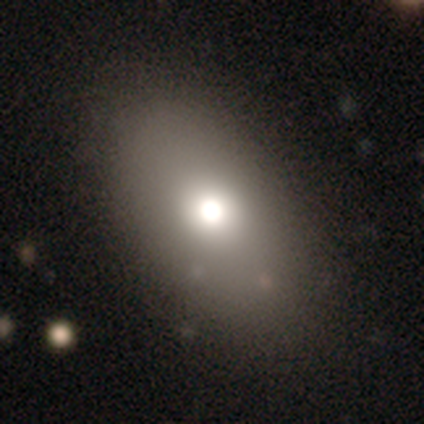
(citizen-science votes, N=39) This appears to be a smooth galaxy with no disk features (72%) that is in between round and cigar-shaped (82%). Merging: none (62%).